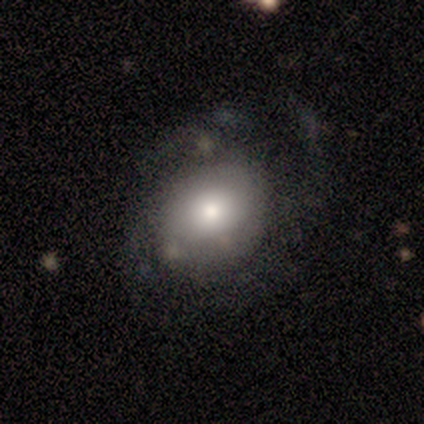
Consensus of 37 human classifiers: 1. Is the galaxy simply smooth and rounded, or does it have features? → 49% featured or disk, 41% smooth, 11% star or artifact.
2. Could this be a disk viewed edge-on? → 100% no, 0% yes.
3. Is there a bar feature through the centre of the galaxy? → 100% no, 0% strong, 0% weak.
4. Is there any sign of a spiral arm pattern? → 50% yes (tied), 50% no (tied).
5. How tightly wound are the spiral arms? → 56% tight, 44% medium, 0% loose.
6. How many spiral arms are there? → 56% can't tell, 22% 4, 11% 1, 11% 2, 0% 3, 0% more than 4.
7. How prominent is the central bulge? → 33% large (tied), 33% moderate (tied), 17% small, 11% dominant, 6% none.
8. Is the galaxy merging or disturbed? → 39% major disturbance, 30% minor disturbance, 24% none, 6% merger.